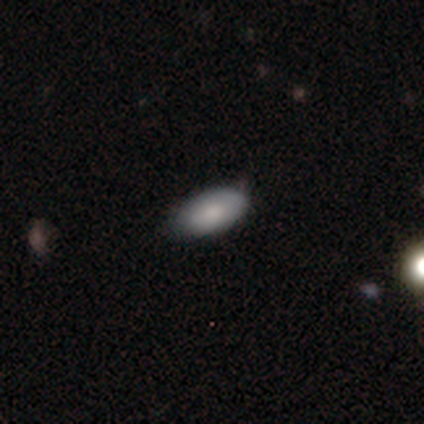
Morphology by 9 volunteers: Smooth or featured? 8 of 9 (89%) said smooth. How rounded? 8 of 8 (100%) said in between. Merging? 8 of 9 (89%) said none.